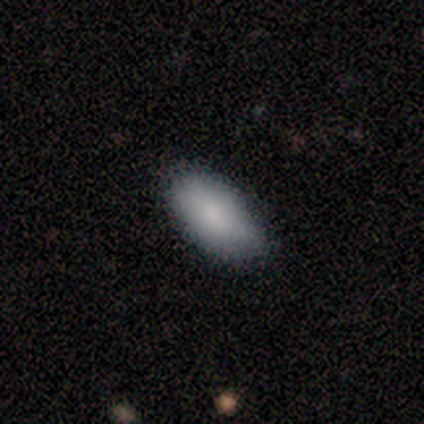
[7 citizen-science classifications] Volunteers were most divided on "merging": none: 86%, minor disturbance: 14%, major disturbance: 0%, merger: 0%. More confident: smooth or featured — smooth (100%); how rounded — in between (100%).